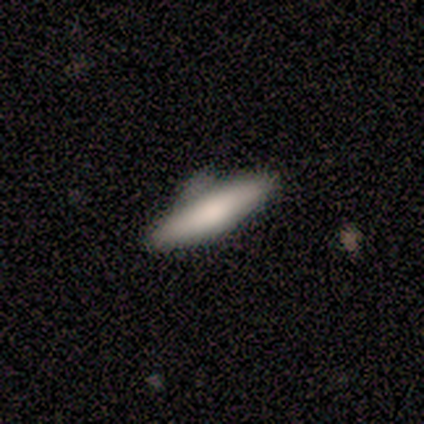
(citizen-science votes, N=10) A smooth galaxy with no disk features (80%) that is cigar-shaped (88%). Merging: none (60%).